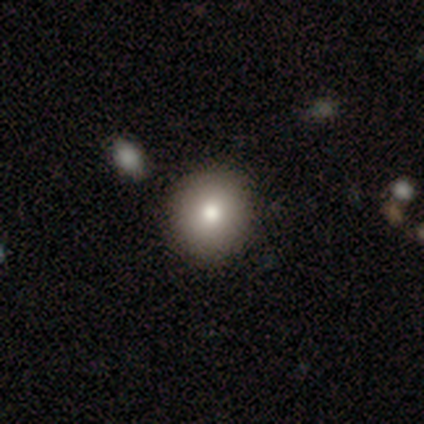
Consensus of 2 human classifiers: Smooth or featured?
  - smooth: 50% * (tied)
  - star or artifact: 50% * (tied)
  - featured or disk: 0%
How rounded?
  - round: 100% *
  - in between: 0%
  - cigar-shaped: 0%
Merging?
  - none: 100% *
  - minor disturbance: 0%
  - major disturbance: 0%
  - merger: 0%